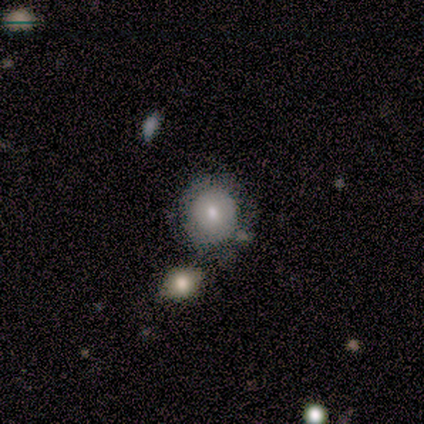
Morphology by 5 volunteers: Smooth or featured? smooth (100%)
How rounded? round (100%)
Merging? none (80%)